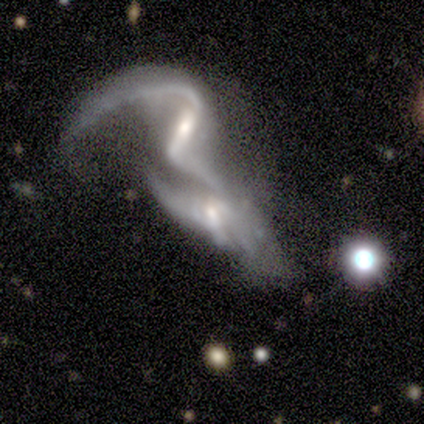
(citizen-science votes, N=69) A featured or disk galaxy (91%) with a strong bar (44%), 2 (67%) loose (86%) spiral arms (69%) and a moderate central bulge (49%). Merging: merger (85%).